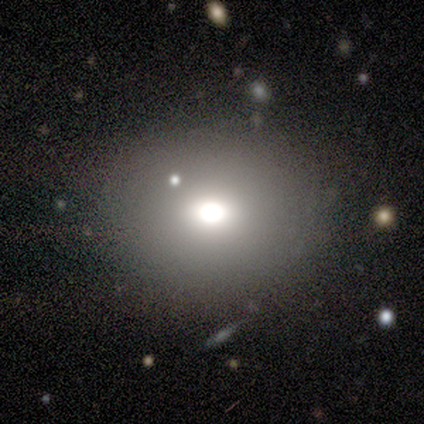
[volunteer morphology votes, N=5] Smooth or featured? 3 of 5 (60%) said smooth. How rounded? 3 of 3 (100%) said round. Merging? 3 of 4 (75%) said none.